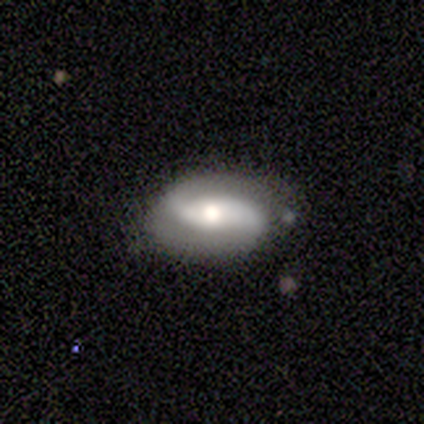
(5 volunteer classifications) Q: Smooth or featured?
A: featured or disk (100%)
Q: Edge-on disk?
A: no (100%)
Q: Bar?
A: strong (40%); tied with: weak (40%)
Q: Spiral arms?
A: yes (80%); runner-up: no (20%)
Q: Spiral winding?
A: medium (50%); runner-up: tight (25%)
Q: Spiral arm count?
A: 2 (100%)
Q: Bulge size?
A: moderate (80%); runner-up: large (20%)
Q: Merging?
A: none (60%); runner-up: minor disturbance (20%)